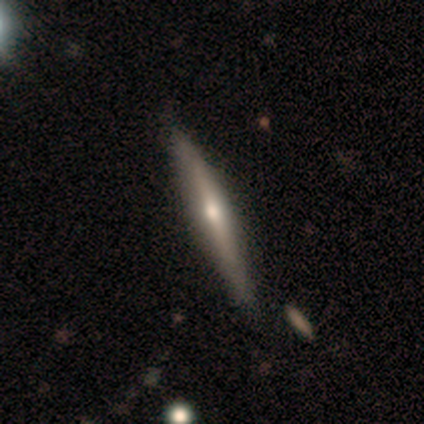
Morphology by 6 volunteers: Smooth or featured? 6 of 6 (100%) said featured or disk. Edge-on disk? 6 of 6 (100%) said yes. Edge-on bulge? 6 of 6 (100%) said rounded. Merging? 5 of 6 (83%) said none.